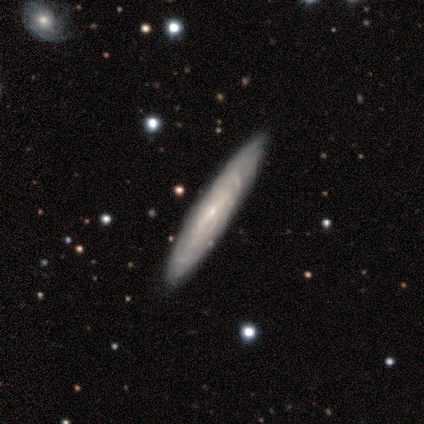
A featured or disk galaxy (100%) viewed edge-on (60%) with no central bulge (67%). Merging: none (80%).